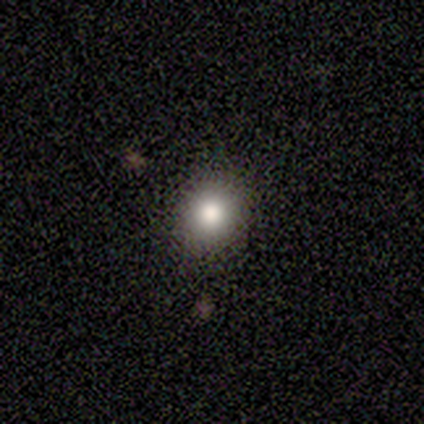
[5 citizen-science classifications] smooth-or-featured: smooth: 100% | featured or disk: 0% | star or artifact: 0%
  how-rounded: round: 100% | in between: 0% | cigar-shaped: 0%
  merging: none: 100% | minor disturbance: 0% | major disturbance: 0% | merger: 0%